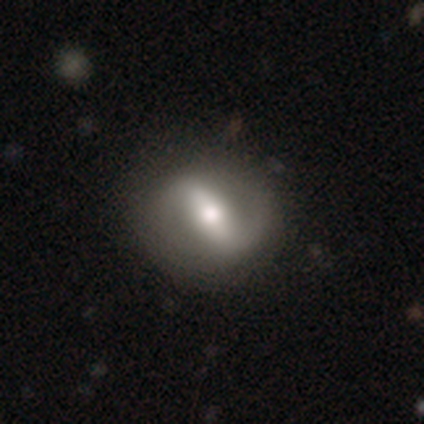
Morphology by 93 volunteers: Q: Smooth or featured?
A: featured or disk (72%); runner-up: smooth (19%)
Q: Edge-on disk?
A: no (88%); runner-up: yes (12%)
Q: Bar?
A: strong (64%); runner-up: weak (24%)
Q: Spiral arms?
A: yes (78%); runner-up: no (22%)
Q: Spiral winding?
A: loose (46%); runner-up: medium (39%)
Q: Spiral arm count?
A: 2 (89%); runner-up: 1 (7%)
Q: Bulge size?
A: moderate (64%); runner-up: large (17%)
Q: Merging?
A: none (75%); runner-up: minor disturbance (14%)